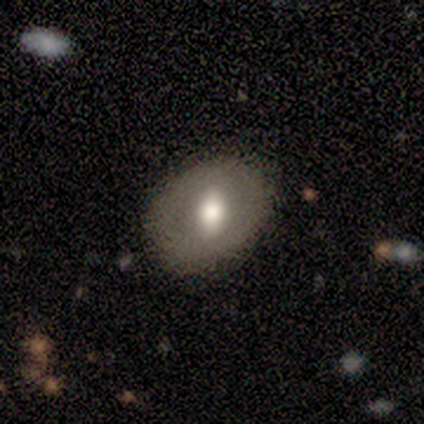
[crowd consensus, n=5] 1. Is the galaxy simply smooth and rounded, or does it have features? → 60% smooth, 40% featured or disk, 0% star or artifact.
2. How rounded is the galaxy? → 67% in between, 33% round, 0% cigar-shaped.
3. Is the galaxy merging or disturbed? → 80% none, 20% major disturbance, 0% minor disturbance, 0% merger.